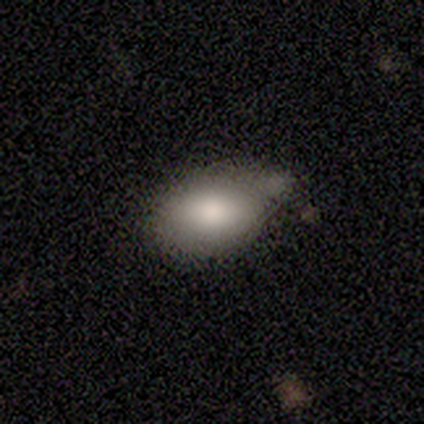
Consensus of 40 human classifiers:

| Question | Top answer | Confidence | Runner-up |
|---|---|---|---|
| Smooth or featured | smooth | 78% | featured or disk (18%) |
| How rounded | in between | 84% | round (16%) |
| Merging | minor disturbance | 34% | none (26%) |